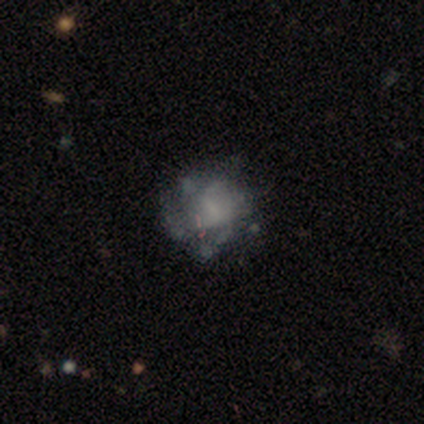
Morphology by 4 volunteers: smooth-or-featured: featured or disk: 75% | star or artifact: 25% | smooth: 0%
  disk-edge-on: no: 100% | yes: 0%
    bar: no: 67% | strong: 33% | weak: 0%
    has-spiral-arms: no: 67% | yes: 33%
    bulge-size: moderate: 67% | none: 33% | dominant: 0% | large: 0% | small: 0%
  merging: none: 100% | minor disturbance: 0% | major disturbance: 0% | merger: 0%